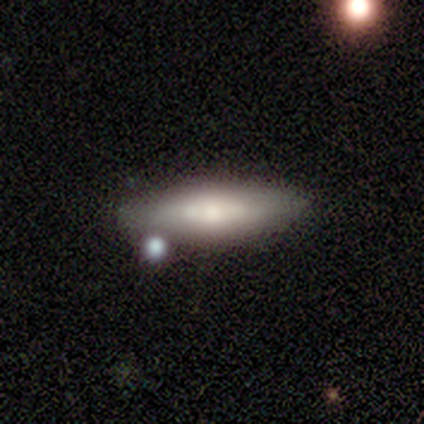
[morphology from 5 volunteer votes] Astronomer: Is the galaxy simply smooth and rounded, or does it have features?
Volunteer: smooth — 60% (runner-up: featured or disk, 40%).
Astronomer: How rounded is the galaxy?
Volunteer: cigar-shaped — 100%.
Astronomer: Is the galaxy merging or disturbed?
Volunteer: none — 60% (runner-up: minor disturbance, 40%).